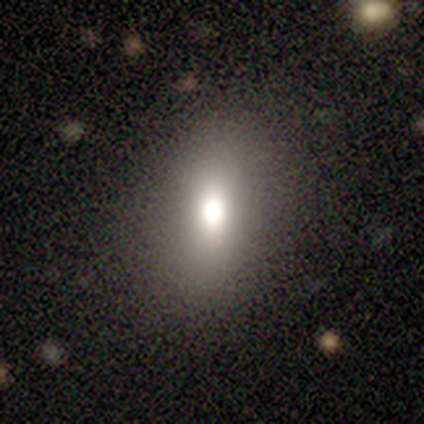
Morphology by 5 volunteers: smooth_or_featured: smooth (p=0.80) [alt: star or artifact p=0.20]
how_rounded: in between (p=0.75) [alt: cigar-shaped p=0.25]
merging: none (p=0.75) [alt: minor disturbance p=0.25]